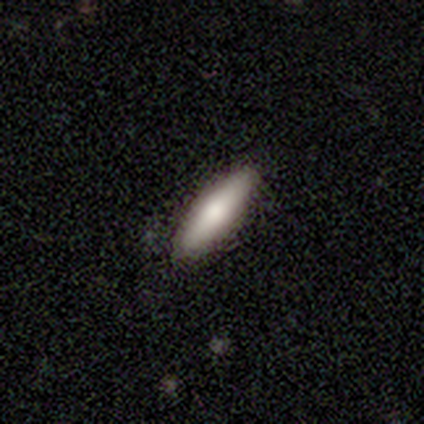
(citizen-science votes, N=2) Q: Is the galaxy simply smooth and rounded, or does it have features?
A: smooth — 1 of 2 (50%, tied with star or artifact).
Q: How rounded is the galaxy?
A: in between — 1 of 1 (100%).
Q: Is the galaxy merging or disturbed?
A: none — 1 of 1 (100%).